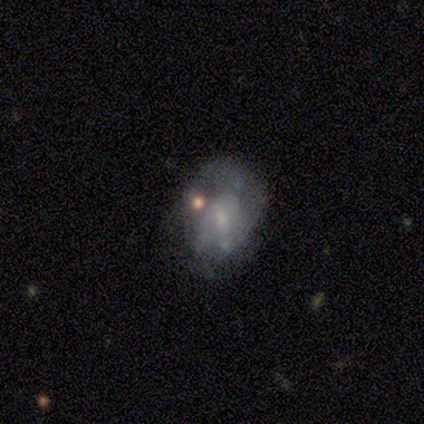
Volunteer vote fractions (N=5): Q: Smooth or featured?
A: smooth (60%); runner-up: featured or disk (40%)
Q: How rounded?
A: in between (67%); runner-up: round (33%)
Q: Merging?
A: minor disturbance (60%); runner-up: none (20%)